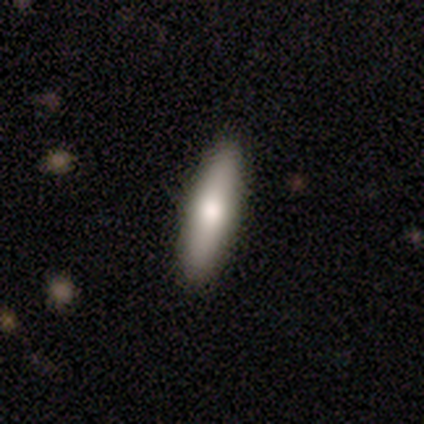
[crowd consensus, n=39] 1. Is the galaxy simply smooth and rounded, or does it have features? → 69% smooth, 23% featured or disk, 8% star or artifact.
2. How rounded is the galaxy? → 70% cigar-shaped, 30% in between, 0% round.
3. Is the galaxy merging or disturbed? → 89% none, 6% minor disturbance, 6% major disturbance, 0% merger.